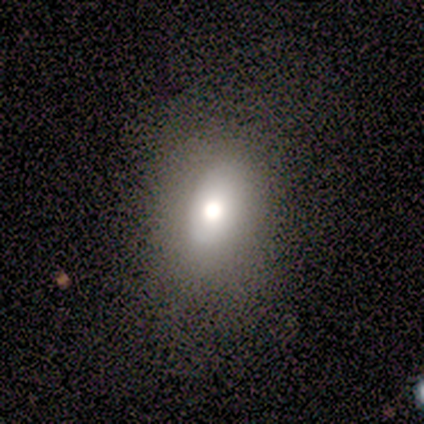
Smooth or featured? smooth (74%)
How rounded? in between (79%)
Merging? none (71%)